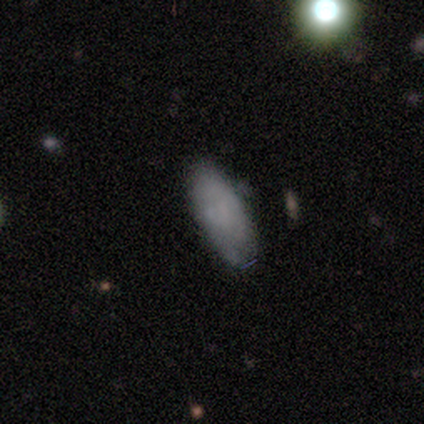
Volunteers were most divided on "merging": none: 46%, minor disturbance: 28%, major disturbance: 5%, merger: 0%. More confident: how rounded — in between (82%); smooth or featured — smooth (72%).